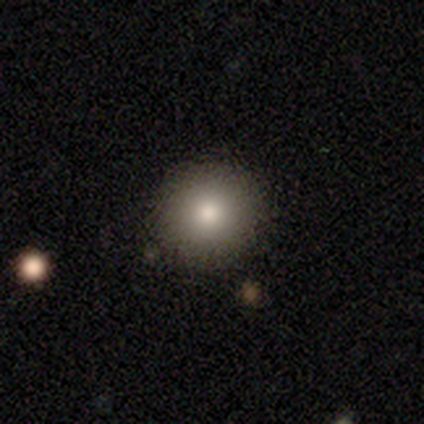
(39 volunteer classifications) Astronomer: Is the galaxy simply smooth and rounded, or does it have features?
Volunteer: smooth — 72%.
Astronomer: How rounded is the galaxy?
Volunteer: round — 89%.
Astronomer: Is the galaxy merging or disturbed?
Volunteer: none — 94%.